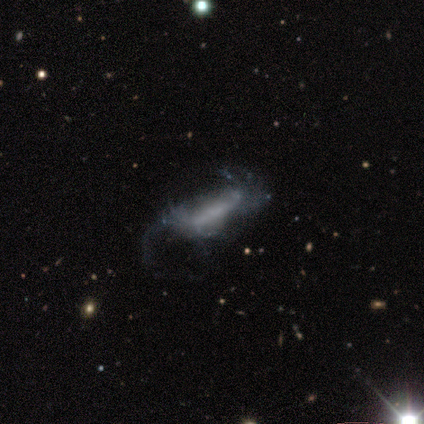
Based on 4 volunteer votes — This is possibly a featured or disk galaxy (50%). It is clearly not viewed edge-on (100%). Bar: clearly strong (100%). Spiral arm pattern: possibly yes (50%, tied with no). Spiral arm count: clearly can't tell (100%). Spiral winding: clearly loose (100%). Central bulge: possibly small (50%, tied with none). Merging: likely major disturbance (67%).